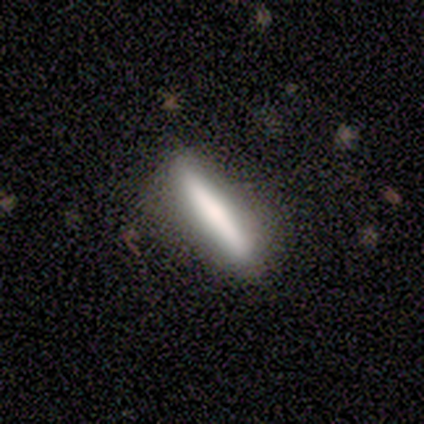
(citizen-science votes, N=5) smooth 80%, featured or disk 20%, star or artifact 0%. Down the decision tree: how rounded — cigar-shaped (100%); merging — none (80%).